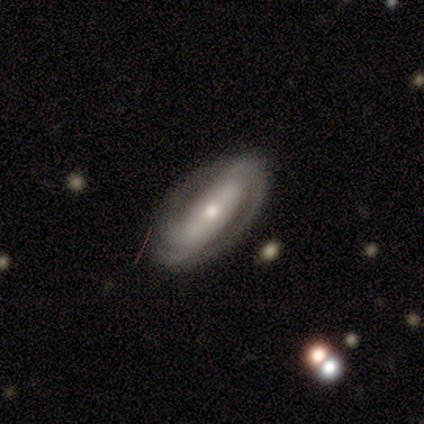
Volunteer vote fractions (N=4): This appears to be a featured or disk galaxy (75%) with no bar (67%), 2 (50%, tied with can't tell) tight (50%, tied with medium) spiral arms (67%) and a small central bulge (100%). Merging: none (50%, tied with major disturbance).